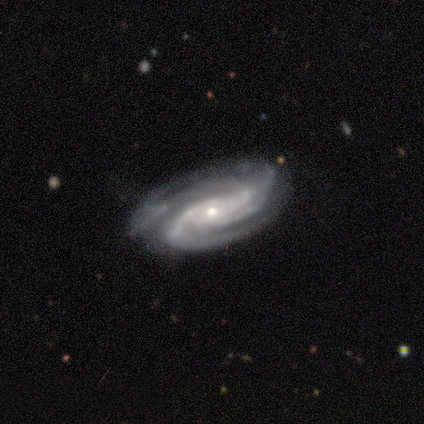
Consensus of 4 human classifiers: Q: Smooth or featured?
A: featured or disk (100%)
Q: Edge-on disk?
A: no (100%)
Q: Bar?
A: no (75%); runner-up: weak (25%)
Q: Spiral arms?
A: yes (100%)
Q: Spiral winding?
A: tight (75%); runner-up: medium (25%)
Q: Spiral arm count?
A: 2 (25%); tied with: 3 (25%); 4 (25%); can't tell (25%)
Q: Bulge size?
A: small (100%)
Q: Merging?
A: none (75%); runner-up: minor disturbance (25%)